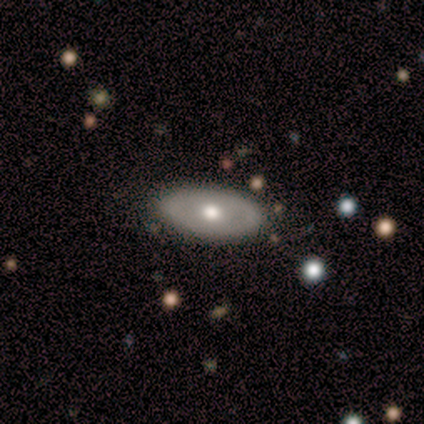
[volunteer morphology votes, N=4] Smooth or featured? featured or disk (75%)
Edge-on disk? yes (67%)
Edge-on bulge? rounded (100%)
Merging? none (75%)